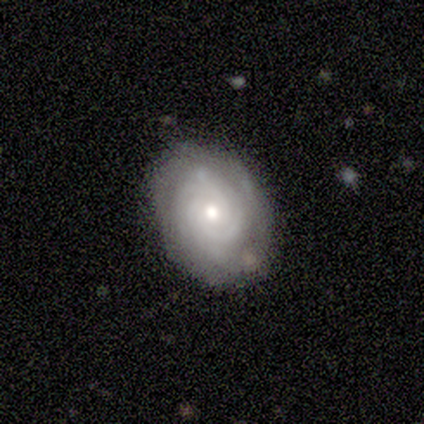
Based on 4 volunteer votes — Smooth or featured? featured or disk (75%)
Edge-on disk? no (100%)
Bar? no (67%)
Spiral arms? yes (100%)
Spiral winding? tight (67%)
Spiral arm count? 3 (33%, tied with 4 and can't tell)
Bulge size? moderate (67%)
Merging? none (100%)